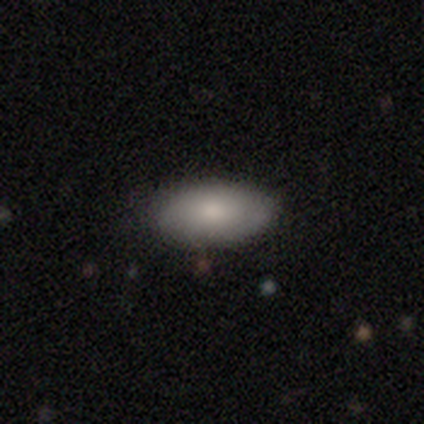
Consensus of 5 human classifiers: Smooth or featured?
  - smooth: 80% *
  - featured or disk: 20%
  - star or artifact: 0%
How rounded?
  - in between: 100% *
  - round: 0%
  - cigar-shaped: 0%
Merging?
  - none: 100% *
  - minor disturbance: 0%
  - major disturbance: 0%
  - merger: 0%